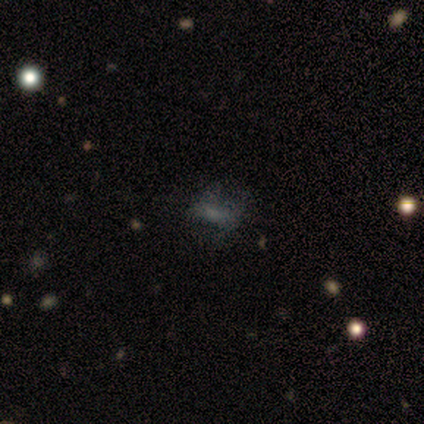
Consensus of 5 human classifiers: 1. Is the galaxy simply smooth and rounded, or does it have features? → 60% smooth, 20% featured or disk, 20% star or artifact.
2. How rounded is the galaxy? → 67% in between, 33% cigar-shaped, 0% round.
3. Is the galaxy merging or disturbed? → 50% minor disturbance, 25% none, 25% major disturbance, 0% merger.